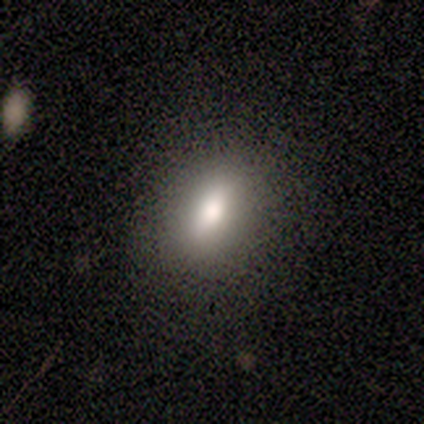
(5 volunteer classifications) smooth_or_featured: smooth (p=0.40) [tied with: star or artifact p=0.40]
how_rounded: in between (p=1.00)
merging: none (p=0.67) [alt: minor disturbance p=0.33]